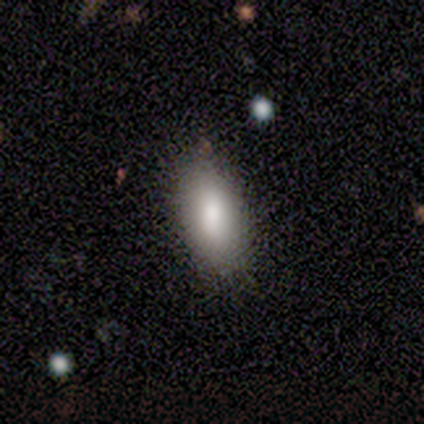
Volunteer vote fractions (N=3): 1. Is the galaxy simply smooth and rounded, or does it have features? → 67% star or artifact, 33% smooth, 0% featured or disk.